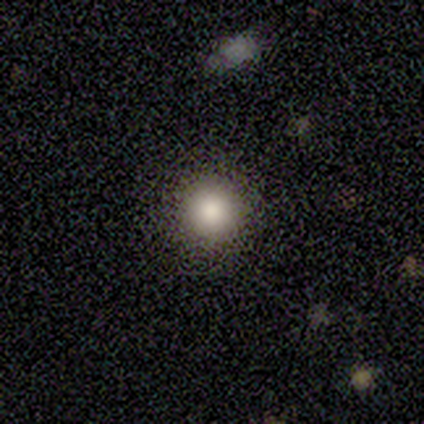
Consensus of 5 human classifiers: Volunteers were most divided on "merging": none: 80%, minor disturbance: 20%, major disturbance: 0%, merger: 0%. More confident: smooth or featured — smooth (100%); how rounded — round (100%).